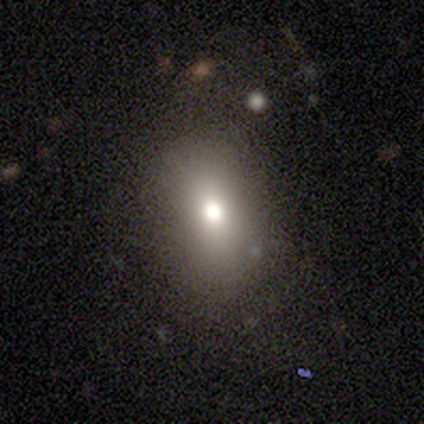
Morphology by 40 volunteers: Volunteers were most divided on "how rounded": in between: 71%, round: 29%, cigar-shaped: 0%. More confident: merging — none (85%); smooth or featured — smooth (70%).